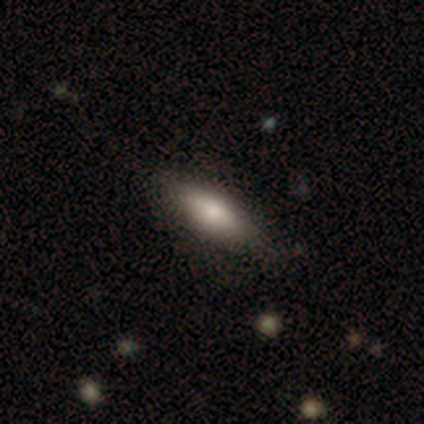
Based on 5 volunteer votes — smooth_or_featured: smooth (p=0.80) [alt: featured or disk p=0.20]
how_rounded: in between (p=1.00)
merging: none (p=1.00)